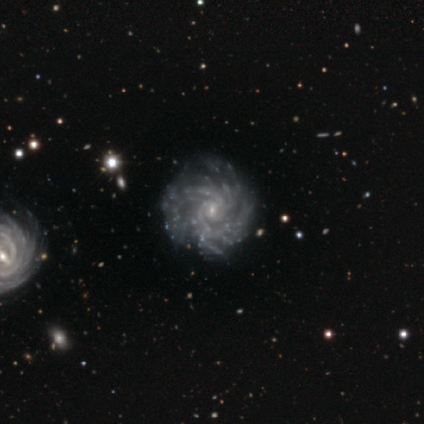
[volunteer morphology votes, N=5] Smooth or featured?
  - featured or disk: 100% *
  - smooth: 0%
  - star or artifact: 0%
Edge-on disk?
  - no: 100% *
  - yes: 0%
Bar?
  - no: 80% *
  - weak: 20%
  - strong: 0%
Spiral arms?
  - yes: 100% *
  - no: 0%
Spiral winding?
  - tight: 40% * (tied)
  - loose: 40% * (tied)
  - medium: 20%
Spiral arm count?
  - more than 4: 80% *
  - can't tell: 20%
  - 1: 0%
  - 2: 0%
  - 3: 0%
  - 4: 0%
Bulge size?
  - small: 80% *
  - moderate: 20%
  - dominant: 0%
  - large: 0%
  - none: 0%
Merging?
  - none: 40% * (tied)
  - major disturbance: 40% * (tied)
  - minor disturbance: 20%
  - merger: 0%